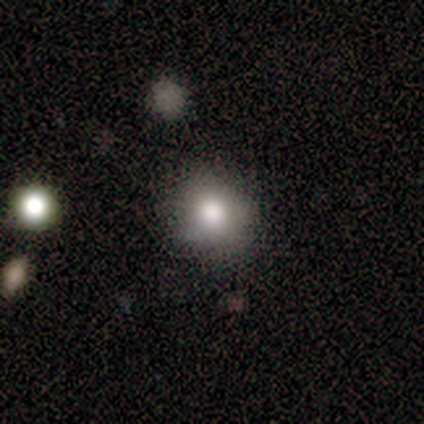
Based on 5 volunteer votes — Smooth or featured?
  - smooth: 100% *
  - featured or disk: 0%
  - star or artifact: 0%
How rounded?
  - round: 80% *
  - in between: 20%
  - cigar-shaped: 0%
Merging?
  - none: 80% *
  - minor disturbance: 20%
  - major disturbance: 0%
  - merger: 0%